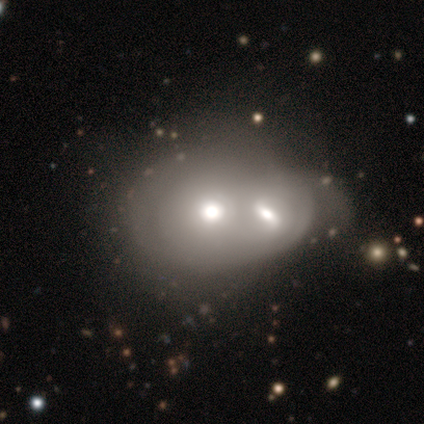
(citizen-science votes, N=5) A smooth galaxy with no disk features (80%) that is round (75%). Merging: merger (80%).